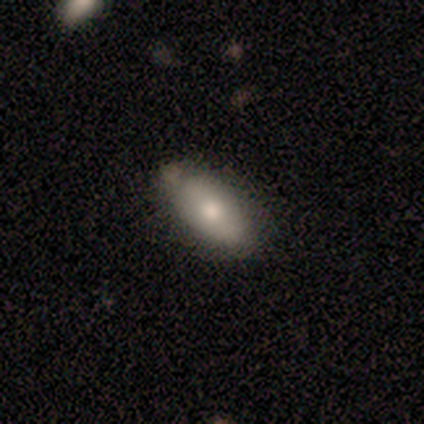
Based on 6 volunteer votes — A smooth galaxy with no disk features (67%) that is in between round and cigar-shaped (100%).

Vote fractions:
- Smooth or featured? smooth: 67% / featured or disk: 33% / star or artifact: 0%
- How rounded? in between: 100% / round: 0% / cigar-shaped: 0%
- Merging? none: 67% / minor disturbance: 33% / major disturbance: 0% / merger: 0%